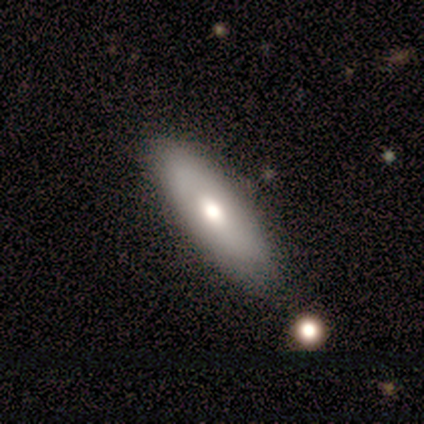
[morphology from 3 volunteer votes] type=smooth (67%); roundness=cigar-shaped (100%); merging=none (67%).